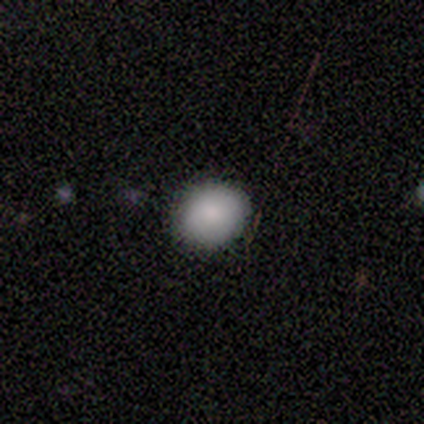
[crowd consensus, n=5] Overall: smooth (100%). How rounded: round (80%). Merging: none (80%).